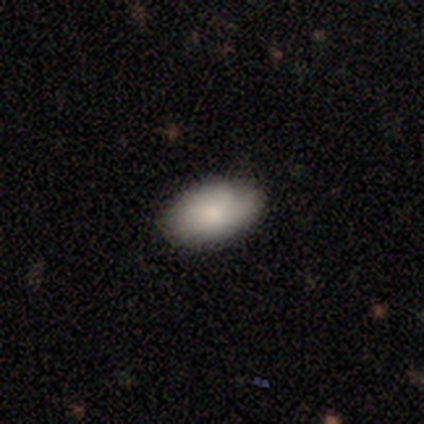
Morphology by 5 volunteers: smooth 80%, featured or disk 20%, star or artifact 0%. Down the decision tree: how rounded — in between (100%); merging — none (80%).